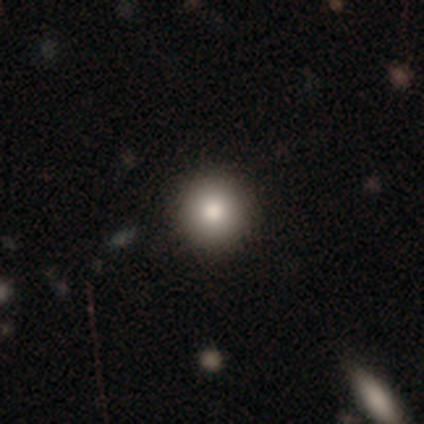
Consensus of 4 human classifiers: This is possibly a smooth galaxy (50%, tied with featured or disk). How rounded: possibly round (50%, tied with cigar-shaped). Merging: marginally none (25%, tied with minor disturbance, major disturbance and merger).